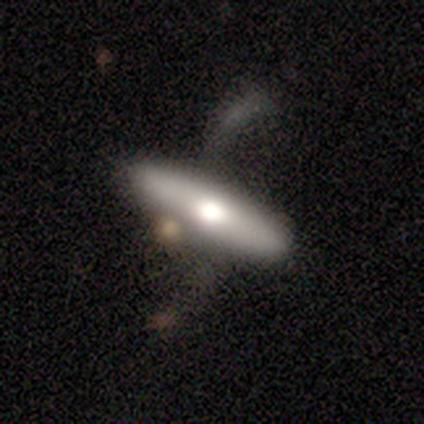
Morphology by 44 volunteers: This is possibly a featured or disk galaxy (52%). It is likely viewed edge-on (65%). Edge-on bulge: clearly rounded (80%). Merging: marginally none (35%).